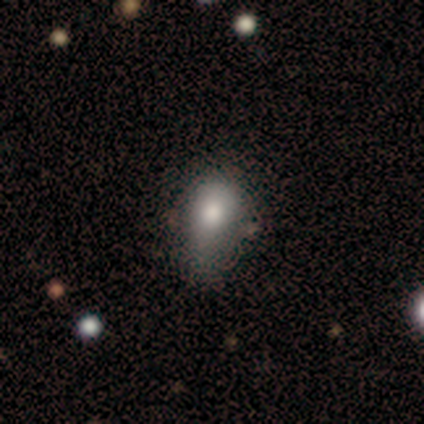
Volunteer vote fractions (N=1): smooth-or-featured: featured or disk: 100% | smooth: 0% | star or artifact: 0%
  disk-edge-on: no: 100% | yes: 0%
    bar: no: 100% | strong: 0% | weak: 0%
    has-spiral-arms: no: 100% | yes: 0%
    bulge-size: dominant: 100% | large: 0% | moderate: 0% | small: 0% | none: 0%
  merging: major disturbance: 100% | none: 0% | minor disturbance: 0% | merger: 0%